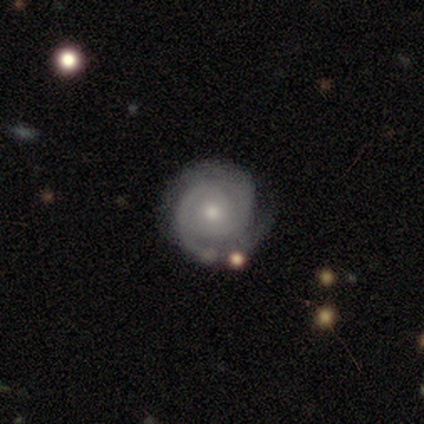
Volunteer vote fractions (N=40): Volunteers were most divided on "bulge size": small: 60%, moderate: 40%, dominant: 0%, large: 0%, none: 0%. More confident: edge-on disk — no (97%); spiral arms — yes (97%); smooth or featured — featured or disk (90%); merging — none (87%); bar — no (83%); spiral winding — tight (74%); spiral arm count — 2 (74%).